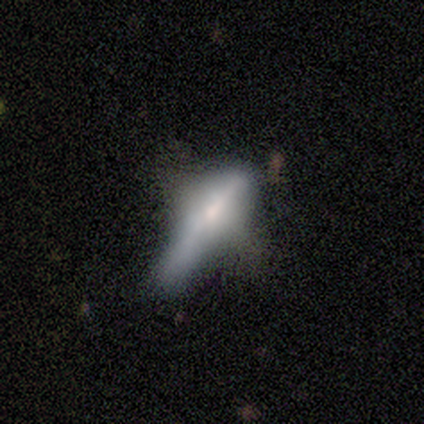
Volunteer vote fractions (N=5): smooth_or_featured: featured or disk (p=0.80) [alt: smooth p=0.20]
disk_edge_on: yes (p=0.50) [tied with: no p=0.50]
edge_on_bulge: none (p=0.50) [tied with: rounded p=0.50]
merging: major disturbance (p=0.60) [alt: none p=0.20]